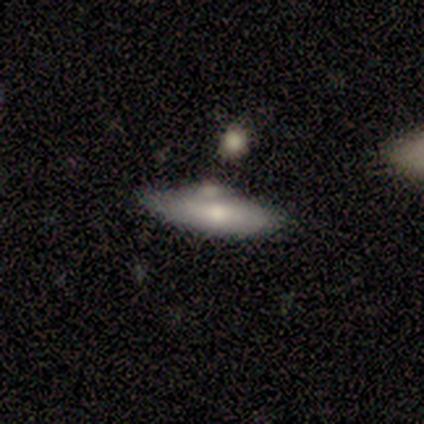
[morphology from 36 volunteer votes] smooth 72%, featured or disk 25%, star or artifact 3%. Down the decision tree: how rounded — cigar-shaped (58%); merging — none (71%).